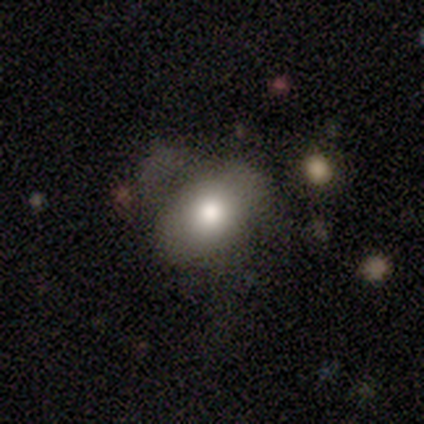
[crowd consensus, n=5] This appears to be a smooth galaxy with no disk features (100%) that is in between round and cigar-shaped (80%). Merging: none (60%).